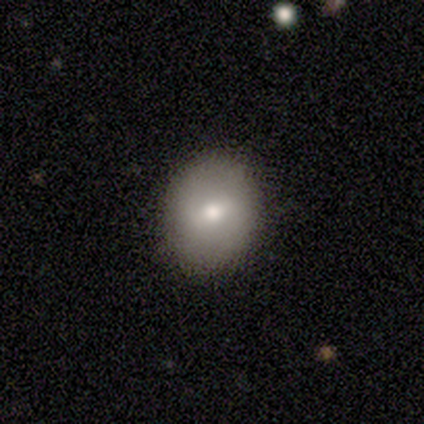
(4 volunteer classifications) Overall: smooth (100%). How rounded: round (75%). Merging: none (100%).